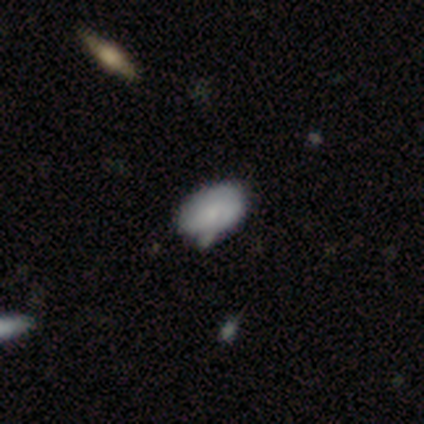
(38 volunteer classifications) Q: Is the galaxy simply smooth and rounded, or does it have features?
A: smooth — 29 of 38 (76%).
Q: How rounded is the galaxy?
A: in between — 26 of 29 (90%).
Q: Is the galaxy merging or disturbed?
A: none — 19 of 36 (53%).